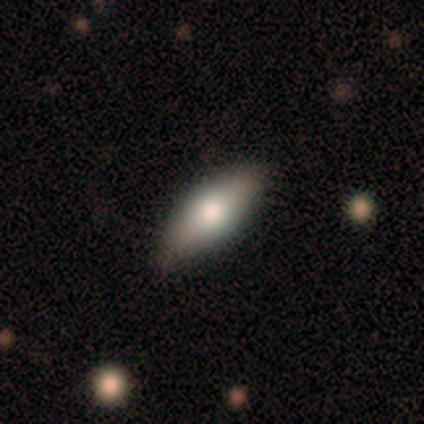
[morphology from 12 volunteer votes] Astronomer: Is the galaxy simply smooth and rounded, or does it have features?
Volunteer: smooth — 50%, tied with featured or disk at 50%.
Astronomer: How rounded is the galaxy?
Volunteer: in between — 67%.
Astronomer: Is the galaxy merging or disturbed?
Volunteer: none — 92%.